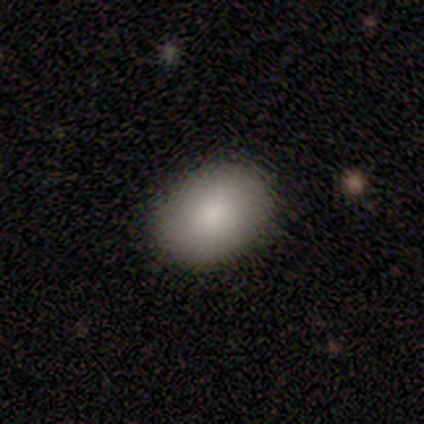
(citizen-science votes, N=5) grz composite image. It shows a smooth galaxy with no disk features (100%) that is in between round and cigar-shaped (80%). Merging: none (100%).